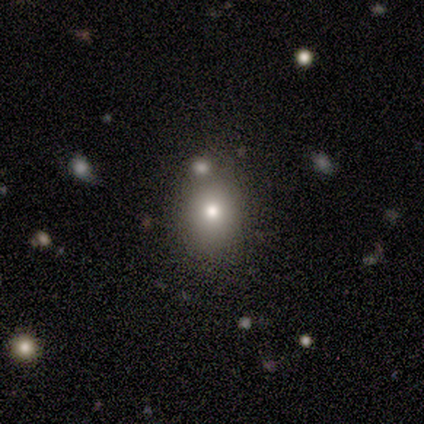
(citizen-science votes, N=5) This appears to be a smooth galaxy with no disk features (60%) that is round (67%). Merging: none (67%).